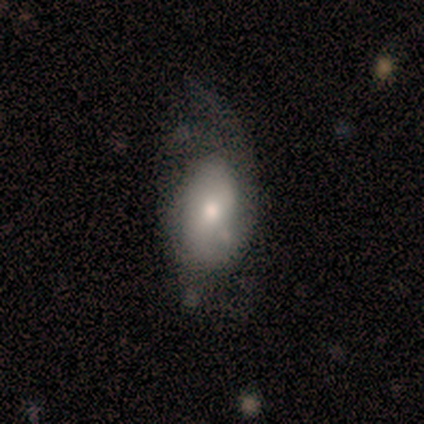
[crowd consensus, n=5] smooth-or-featured: smooth: 60% | featured or disk: 40% | star or artifact: 0%
  how-rounded: in between: 100% | round: 0% | cigar-shaped: 0%
  merging: none: 60% | major disturbance: 40% | minor disturbance: 0% | merger: 0%